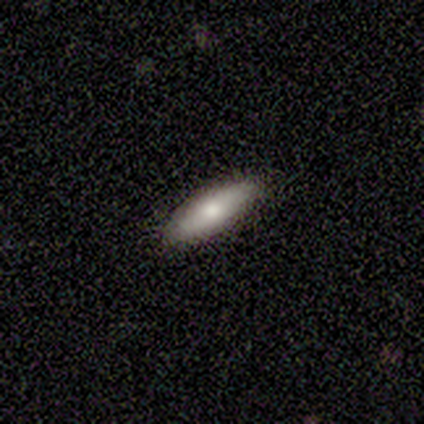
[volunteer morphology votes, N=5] Volunteers were most divided on "how rounded": in between: 80%, cigar-shaped: 20%, round: 0%. More confident: smooth or featured — smooth (100%); merging — none (100%).